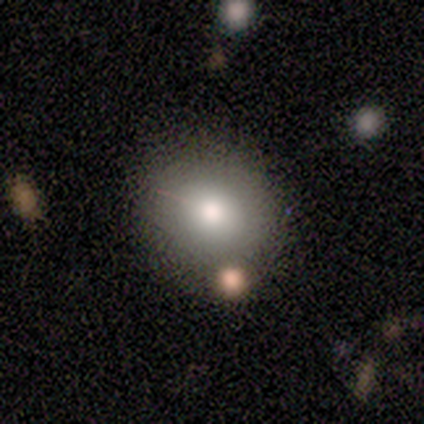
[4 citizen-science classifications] This appears to be a smooth galaxy with no disk features (75%) that is round (100%). Merging: none (100%).